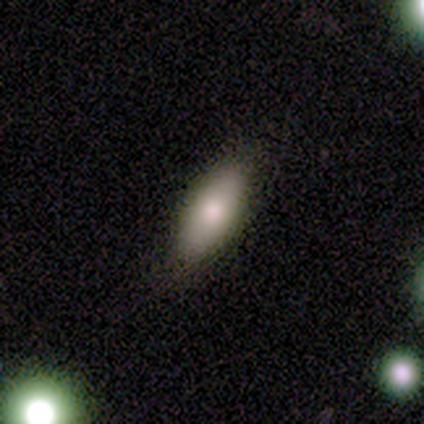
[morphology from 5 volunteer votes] smooth 60%, featured or disk 40%, star or artifact 0%. Down the decision tree: how rounded — in between (100%); merging — none (80%).